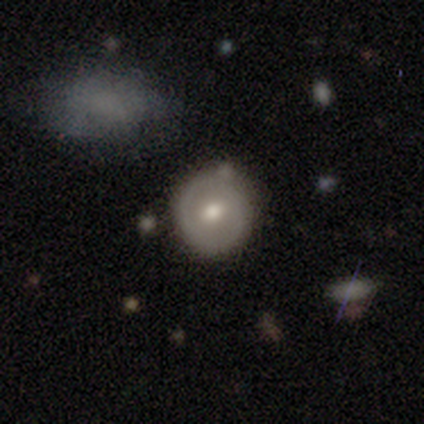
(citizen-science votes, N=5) smooth 80%, featured or disk 20%, star or artifact 0%. Down the decision tree: how rounded — round (100%); merging — none (100%).